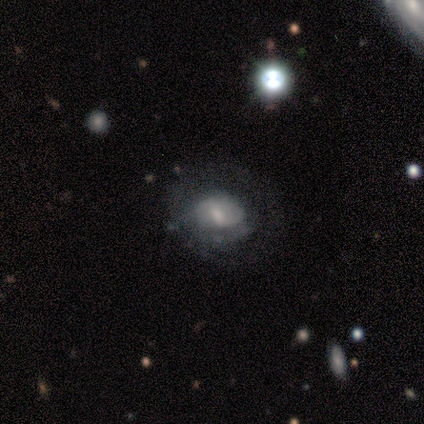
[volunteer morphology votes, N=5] This appears to be a featured or disk galaxy (60%) with a weak bar (100%), no spiral arms (67%) and a moderate central bulge (100%). Merging: major disturbance (60%).